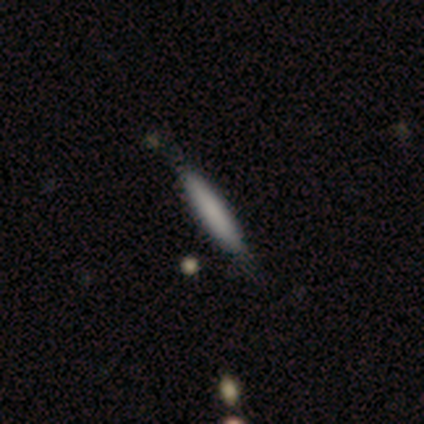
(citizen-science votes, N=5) Smooth or featured: smooth — 80% (star or artifact — 20%)
How rounded: cigar-shaped — 100%
Merging: none — 50% (tied with minor disturbance — 50%)